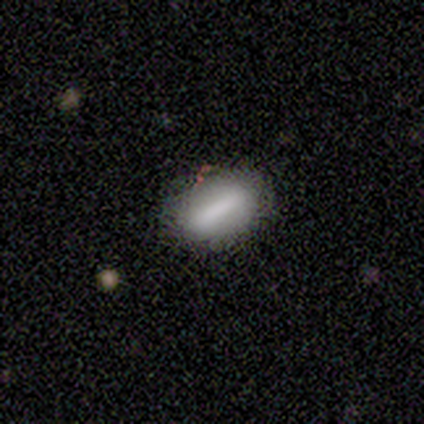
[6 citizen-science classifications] Smooth or featured? smooth (83%)
How rounded? in between (100%)
Merging? none (100%)